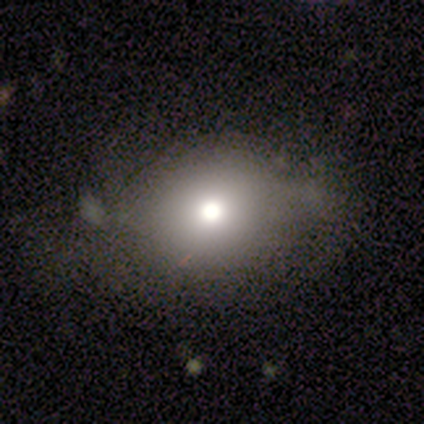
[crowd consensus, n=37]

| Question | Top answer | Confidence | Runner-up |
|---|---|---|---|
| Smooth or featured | smooth | 76% | featured or disk (14%) |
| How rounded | round | 64% | in between (36%) |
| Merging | none | 58% | minor disturbance (21%) |